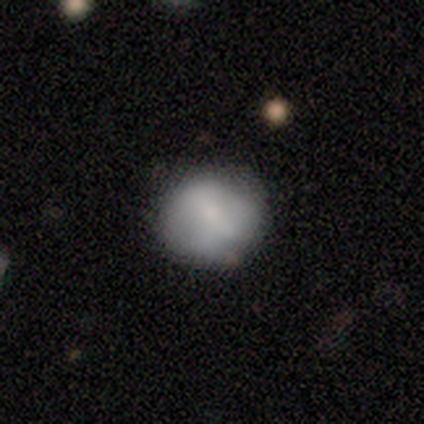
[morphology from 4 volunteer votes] Smooth or featured? 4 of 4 (100%) said smooth. How rounded? 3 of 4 (75%) said round. Merging? 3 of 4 (75%) said none.